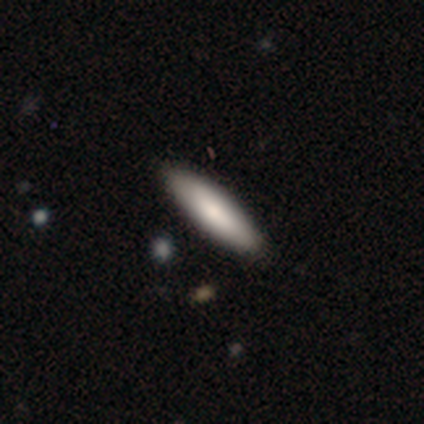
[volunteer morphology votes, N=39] Smooth or featured? 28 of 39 (72%) said smooth. How rounded? 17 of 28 (61%) said cigar-shaped. Merging? 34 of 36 (94%) said none.